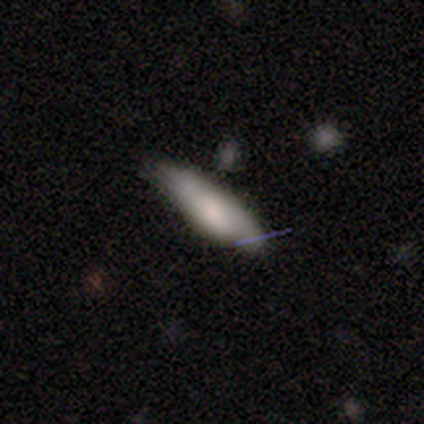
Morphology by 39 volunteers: Smooth or featured?
  - smooth: 69% *
  - featured or disk: 26%
  - star or artifact: 5%
How rounded?
  - in between: 63% *
  - cigar-shaped: 37%
  - round: 0%
Merging?
  - none: 54% *
  - minor disturbance: 22%
  - merger: 8%
  - major disturbance: 3%